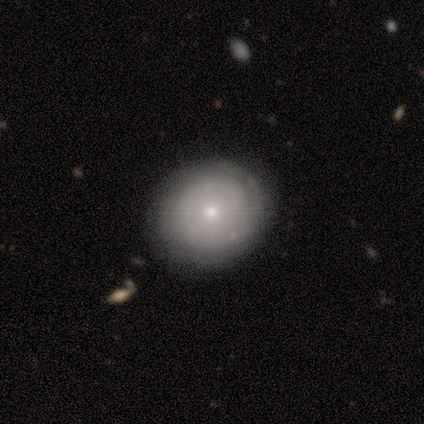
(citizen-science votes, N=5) Smooth or featured: smooth — 60% (featured or disk — 40%)
How rounded: round — 67% (in between — 33%)
Merging: none — 80% (minor disturbance — 20%)